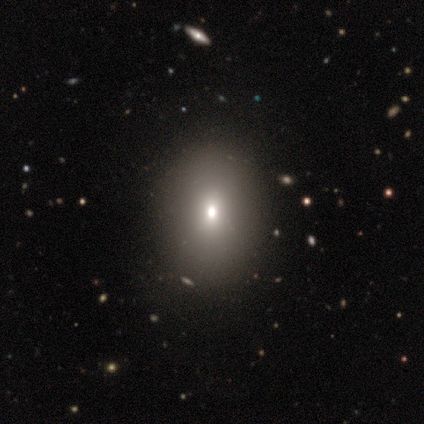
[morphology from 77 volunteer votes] smooth-or-featured: smooth: 70% | star or artifact: 16% | featured or disk: 14%
  how-rounded: in between: 78% | round: 22% | cigar-shaped: 0%
  merging: none: 37% | minor disturbance: 8% | merger: 5% | major disturbance: 3%